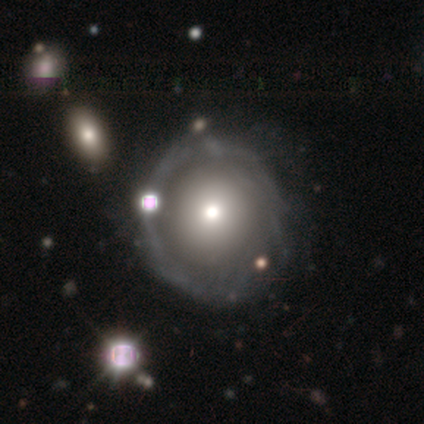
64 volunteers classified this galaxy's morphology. smooth_or_featured: featured or disk (p=0.67) [alt: smooth p=0.23]
disk_edge_on: no (p=1.00)
bar: no (p=0.95) [alt: strong p=0.02]
has_spiral_arms: no (p=0.65) [alt: yes p=0.35]
bulge_size: moderate (p=0.58) [alt: small p=0.26]
merging: none (p=0.48) [alt: minor disturbance p=0.14]